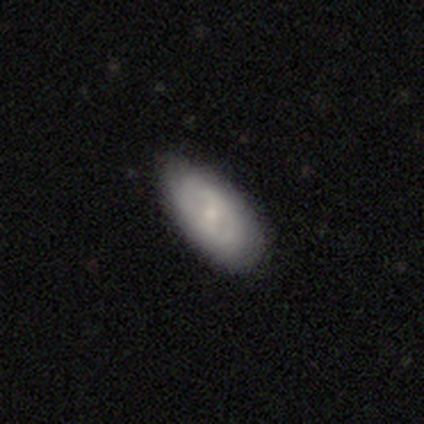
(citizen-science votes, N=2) smooth-or-featured: smooth: 50% (tied) | featured or disk: 50% (tied) | star or artifact: 0%
  how-rounded: in between: 100% | round: 0% | cigar-shaped: 0%
  merging: none: 50% (tied) | minor disturbance: 50% (tied) | major disturbance: 0% | merger: 0%